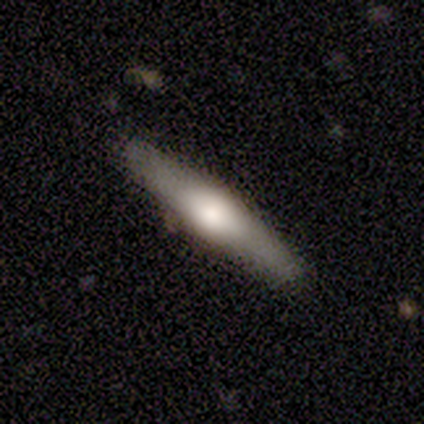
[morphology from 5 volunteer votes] smooth_or_featured: smooth (p=0.80) [alt: featured or disk p=0.20]
how_rounded: cigar-shaped (p=1.00)
merging: none (p=0.80) [alt: minor disturbance p=0.20]